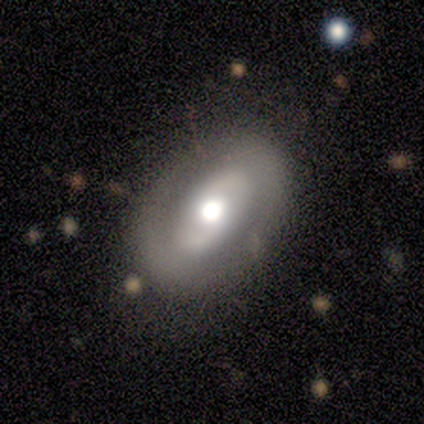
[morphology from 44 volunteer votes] Smooth or featured? featured or disk (68%)
Edge-on disk? no (100%)
Bar? no (77%)
Spiral arms? yes (70%)
Spiral winding? tight (38%, tied with medium)
Spiral arm count? 2 (90%)
Bulge size? moderate (53%)
Merging? none (81%)